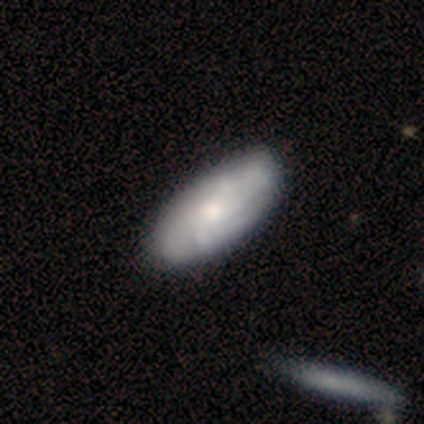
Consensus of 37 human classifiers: Smooth or featured? 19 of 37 (51%) said smooth. How rounded? 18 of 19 (95%) said in between. Merging? 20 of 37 (54%) said none.